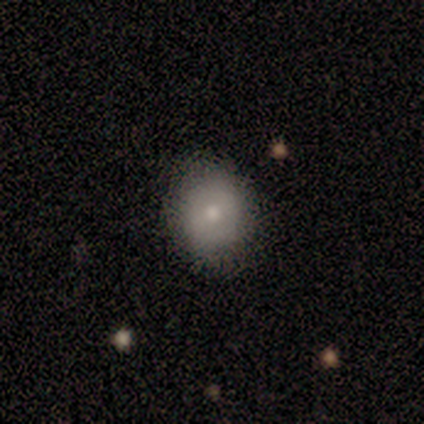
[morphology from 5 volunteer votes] type=smooth (80%); roundness=round (75%); merging=none (100%).